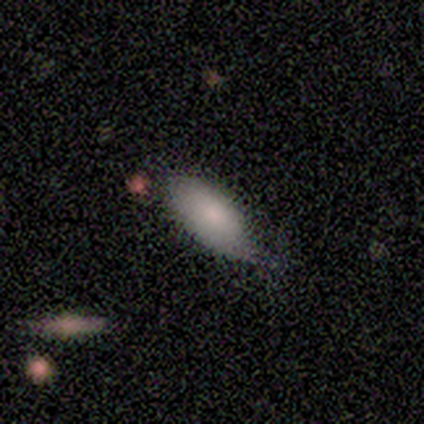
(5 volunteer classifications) Smooth or featured? 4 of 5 (80%) said smooth. How rounded? 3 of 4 (75%) said in between. Merging? 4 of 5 (80%) said none.